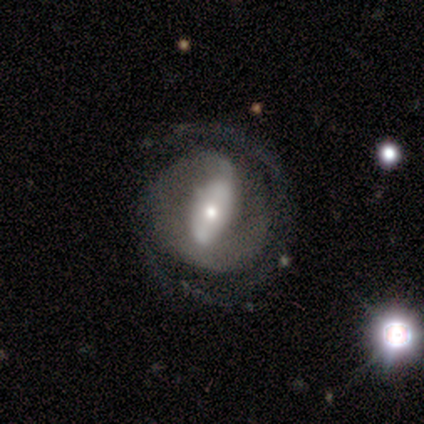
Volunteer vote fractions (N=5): This appears to be a featured or disk galaxy (80%) with a weak bar (50%), 2 (75%) tight (50%, tied with loose) spiral arms (100%) and a moderate central bulge (75%). Merging: none (60%).